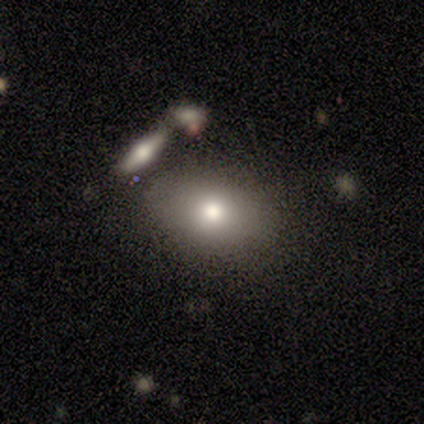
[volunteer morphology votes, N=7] Q: Smooth or featured?
A: smooth (57%); runner-up: featured or disk (29%)
Q: How rounded?
A: in between (100%)
Q: Merging?
A: none (50%); runner-up: minor disturbance (33%)